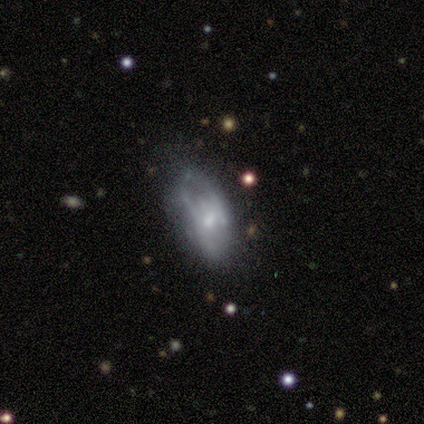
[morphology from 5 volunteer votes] smooth-or-featured: featured or disk: 60% | smooth: 40% | star or artifact: 0%
  disk-edge-on: no: 67% | yes: 33%
    bar: weak: 50% (tied) | no: 50% (tied) | strong: 0%
    has-spiral-arms: yes: 100% | no: 0%
      spiral-winding: tight: 50% (tied) | loose: 50% (tied) | medium: 0%
      spiral-arm-count: 3: 50% (tied) | can't tell: 50% (tied) | 1: 0% | 2: 0% | 4: 0% | more than 4: 0%
    bulge-size: moderate: 50% (tied) | small: 50% (tied) | dominant: 0% | large: 0% | none: 0%
  merging: none: 40% (tied) | major disturbance: 40% (tied) | minor disturbance: 20% | merger: 0%